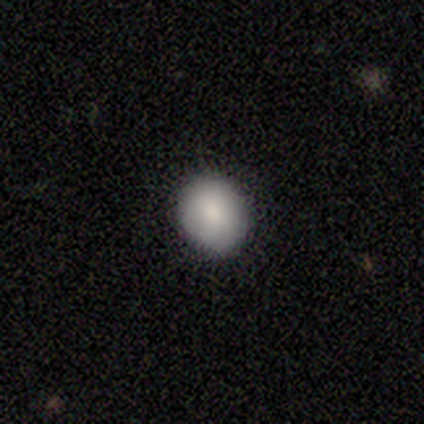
Overall: smooth (100%). How rounded: round (50%, tied with in between). Merging: none (100%).